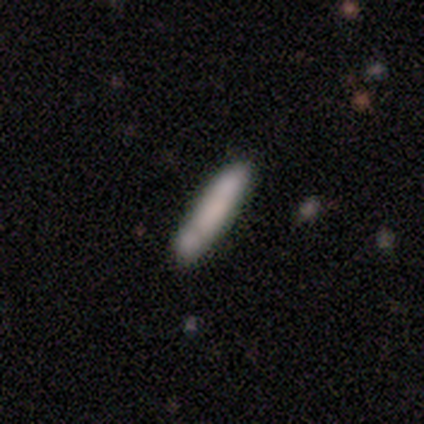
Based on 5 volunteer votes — This is likely a smooth galaxy (60%). How rounded: clearly cigar-shaped (100%). Merging: likely none (60%).